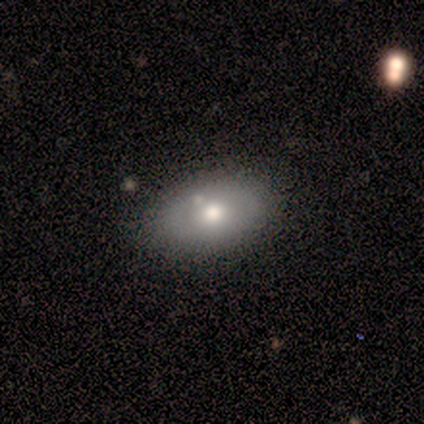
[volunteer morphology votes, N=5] Smooth or featured? 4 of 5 (80%) said smooth. How rounded? 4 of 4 (100%) said in between. Merging? 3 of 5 (60%) said minor disturbance.